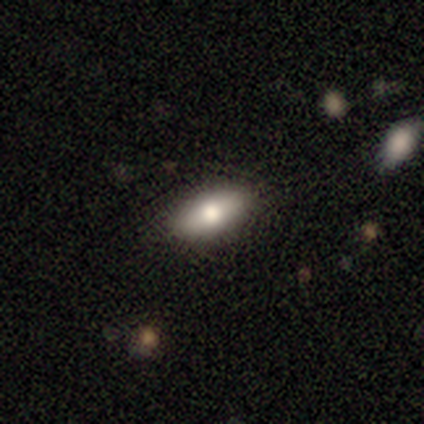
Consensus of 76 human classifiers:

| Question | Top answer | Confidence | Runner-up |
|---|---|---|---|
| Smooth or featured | smooth | 83% | featured or disk (14%) |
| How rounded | in between | 87% | cigar-shaped (8%) |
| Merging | none | 62% | minor disturbance (8%) |